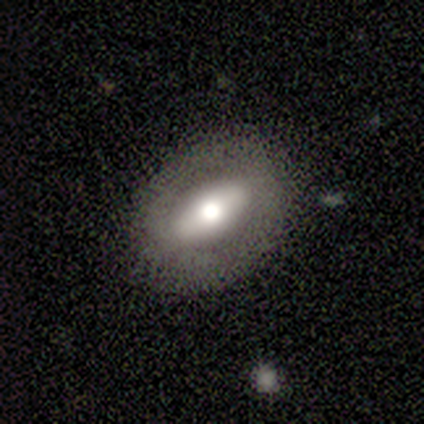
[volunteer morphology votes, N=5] type=smooth (60%); roundness=in between (67%); merging=none (100%).